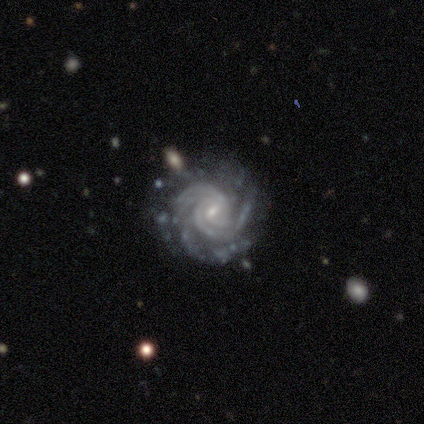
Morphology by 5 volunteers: type=featured or disk (100%); edge-on=no (100%); bar=strong (40%, tied with weak); spiral arms=yes (100%); winding=tight (80%); arm count=2 (60%); bulge=moderate (40%, tied with small); merging=none (80%).